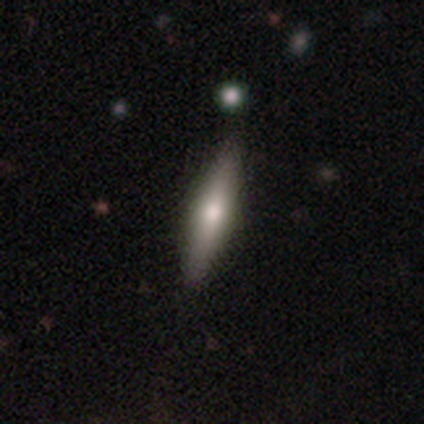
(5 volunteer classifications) Q: Smooth or featured?
A: smooth (80%); runner-up: featured or disk (20%)
Q: How rounded?
A: cigar-shaped (100%)
Q: Merging?
A: none (80%); runner-up: minor disturbance (20%)